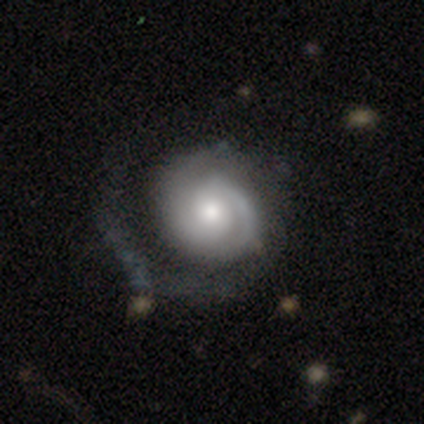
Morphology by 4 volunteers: Smooth or featured? 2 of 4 (50%, tied with featured or disk) said smooth. How rounded? 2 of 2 (100%) said round. Merging? 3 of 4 (75%) said major disturbance.